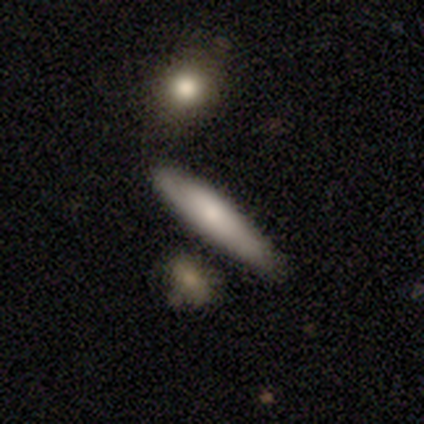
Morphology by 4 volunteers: smooth 75%, star or artifact 25%, featured or disk 0%. Down the decision tree: how rounded — cigar-shaped (100%); merging — none (67%).